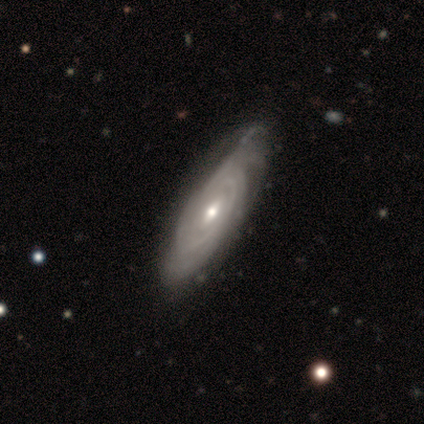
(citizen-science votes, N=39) This appears to be a featured or disk galaxy (92%) with no bar (53%), tight (86%) spiral arms (93%) and a moderate central bulge (53%). Merging: none (34%).